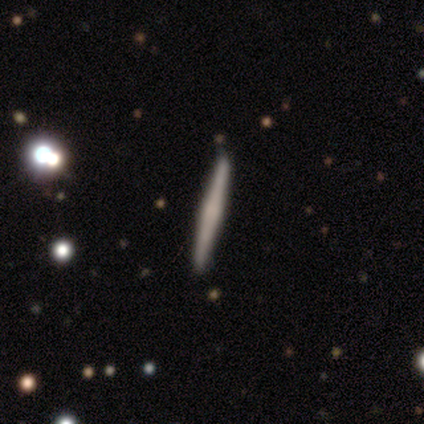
This appears to be a featured or disk galaxy (50%) viewed edge-on (100%) with no central bulge (50%). Merging: none (82%).